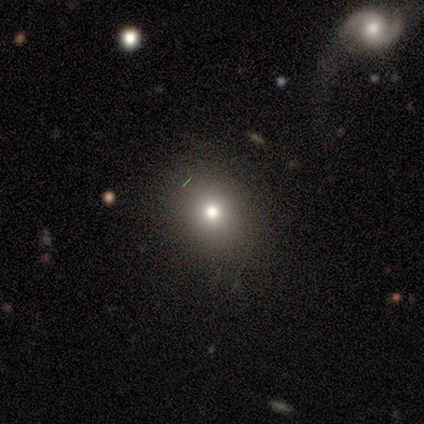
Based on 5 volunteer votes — Smooth or featured: smooth — 80% (featured or disk — 20%)
How rounded: round — 75% (in between — 25%)
Merging: none — 100%